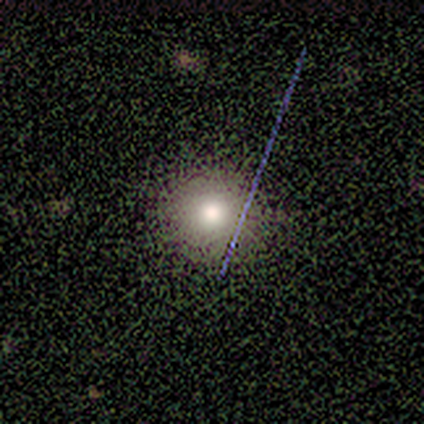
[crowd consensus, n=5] This is clearly a smooth galaxy (80%). How rounded: clearly round (100%). Merging: clearly none (80%).